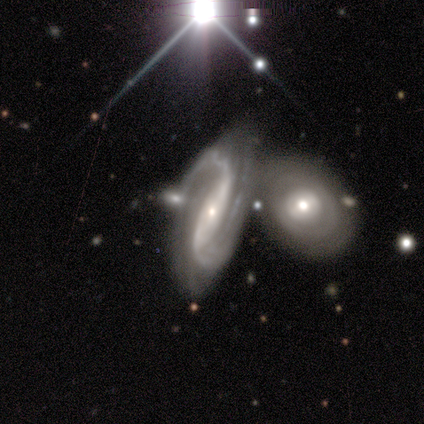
Q: Smooth or featured?
A: featured or disk (100%)
Q: Edge-on disk?
A: no (80%); runner-up: yes (20%)
Q: Bar?
A: no (100%)
Q: Spiral arms?
A: yes (100%)
Q: Spiral winding?
A: tight (50%); runner-up: medium (25%)
Q: Spiral arm count?
A: 2 (50%); runner-up: 4 (25%)
Q: Bulge size?
A: small (50%); runner-up: moderate (25%)
Q: Merging?
A: merger (100%)